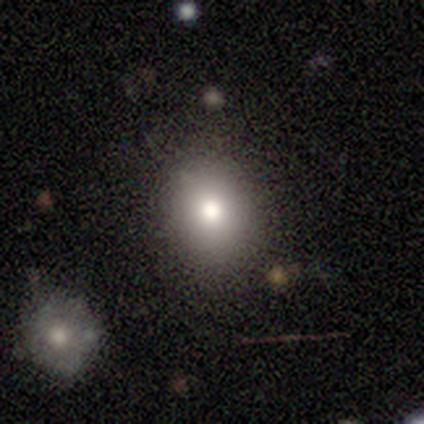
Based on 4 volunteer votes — smooth 75%, featured or disk 25%, star or artifact 0%. Down the decision tree: how rounded — round (67%); merging — none (100%).